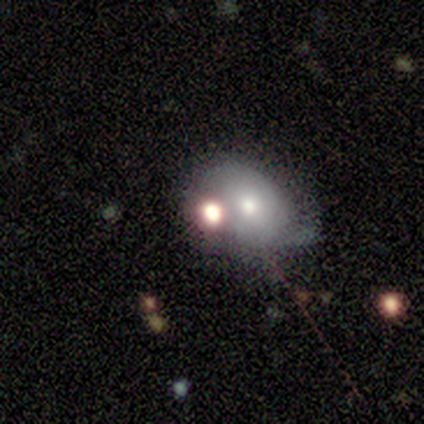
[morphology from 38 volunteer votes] Smooth or featured: smooth — 58% (featured or disk — 21%)
How rounded: in between — 59% (round — 41%)
Merging: none — 43% (merger — 33%)